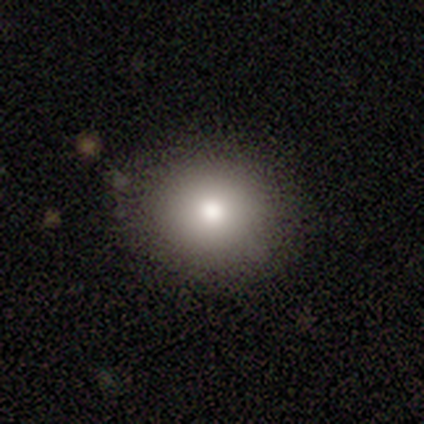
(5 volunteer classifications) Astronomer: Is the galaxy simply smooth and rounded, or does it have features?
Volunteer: smooth — 100%.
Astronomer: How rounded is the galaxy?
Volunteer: round — 100%.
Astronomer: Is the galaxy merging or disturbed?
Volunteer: none — 100%.